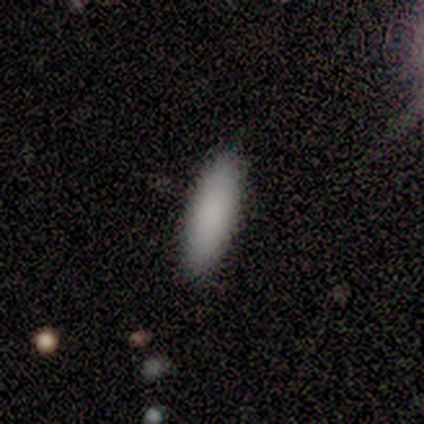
Smooth or featured? 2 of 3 (67%) said smooth. How rounded? 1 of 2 (50%, tied with cigar-shaped) said in between. Merging? 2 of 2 (100%) said none.